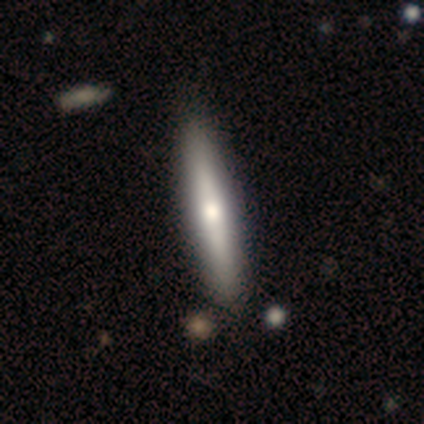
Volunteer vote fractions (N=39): Q: Smooth or featured?
A: smooth (51%); runner-up: featured or disk (49%)
Q: How rounded?
A: cigar-shaped (90%); runner-up: round (5%)
Q: Merging?
A: none (56%); runner-up: minor disturbance (8%)